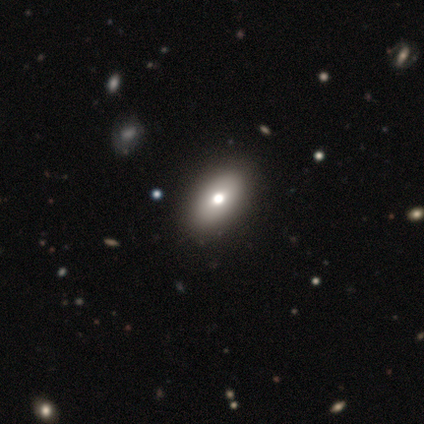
Smooth or featured? smooth (80%)
How rounded? in between (88%)
Merging? none (100%)